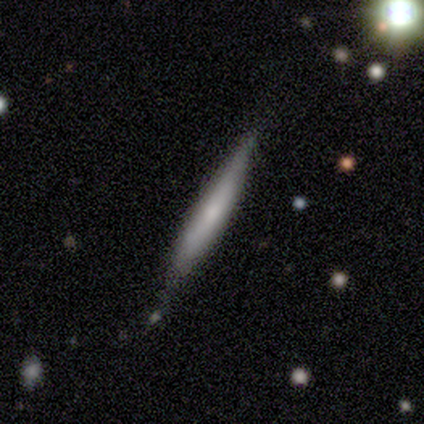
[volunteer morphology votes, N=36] Overall: featured or disk (58%; smooth 36%). Edge-on disk: yes (90%). Edge-on bulge: none (58%; rounded 37%). Merging: none (68%).